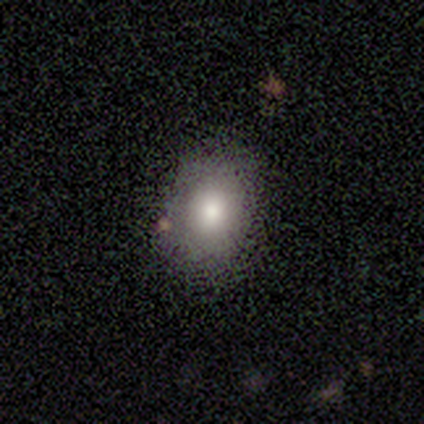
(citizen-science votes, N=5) smooth_or_featured: smooth (p=0.80) [alt: star or artifact p=0.20]
how_rounded: round (p=0.75) [alt: in between p=0.25]
merging: none (p=1.00)